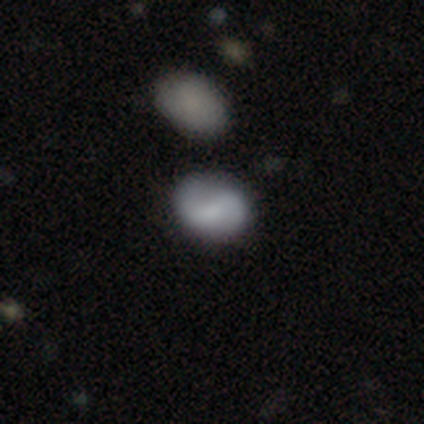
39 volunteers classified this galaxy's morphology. Smooth or featured: featured or disk — 49% (smooth — 46%)
Edge-on disk: no — 95% (yes — 5%)
Bar: weak — 39% (tied with no — 39%)
Spiral arms: yes — 78% (no — 22%)
Spiral winding: loose — 50% (medium — 36%)
Spiral arm count: 2 — 93% (can't tell — 7%)
Bulge size: small — 61% (none — 28%)
Merging: none — 76% (merger — 8%)